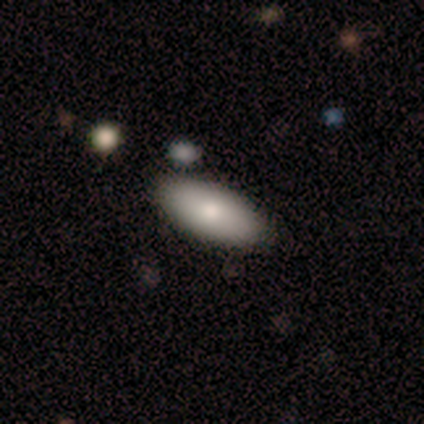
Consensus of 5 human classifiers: smooth_or_featured: smooth (p=0.60) [alt: featured or disk p=0.40]
how_rounded: in between (p=0.67) [alt: cigar-shaped p=0.33]
merging: none (p=0.80) [alt: minor disturbance p=0.20]